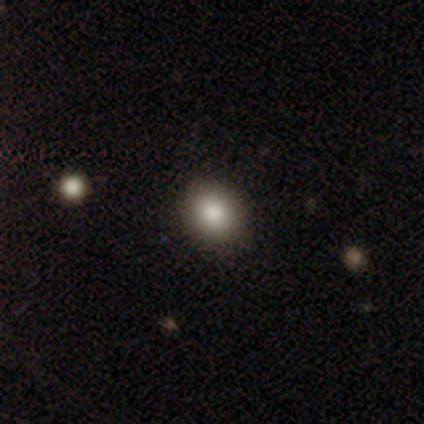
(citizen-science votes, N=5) smooth 100%, featured or disk 0%, star or artifact 0%. Down the decision tree: how rounded — round (80%); merging — none (100%).